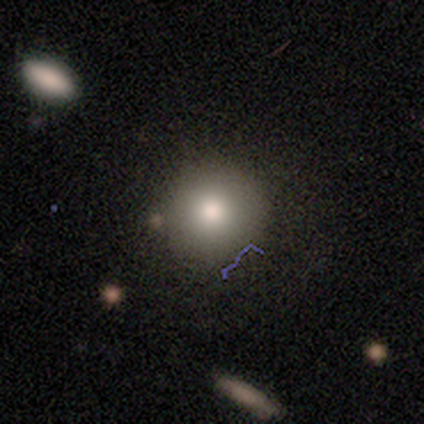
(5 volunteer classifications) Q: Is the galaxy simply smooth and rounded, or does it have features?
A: smooth — 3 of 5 (60%).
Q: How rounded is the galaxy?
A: round — 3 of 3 (100%).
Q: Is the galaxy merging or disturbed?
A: none — 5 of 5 (100%).